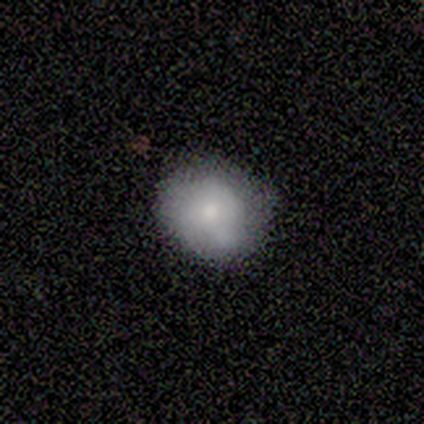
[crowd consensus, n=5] Morphology: type=smooth (80%); roundness=round (100%); merging=none (100%).